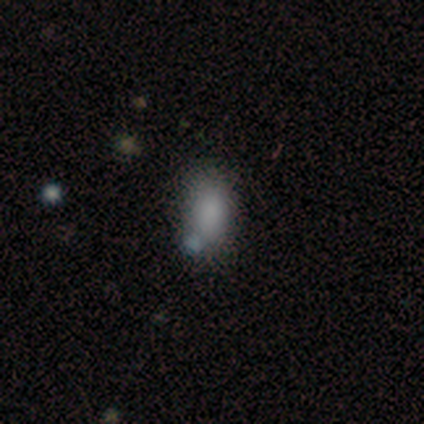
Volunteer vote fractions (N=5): smooth 100%, featured or disk 0%, star or artifact 0%. Down the decision tree: how rounded — in between (80%); merging — minor disturbance (60%).